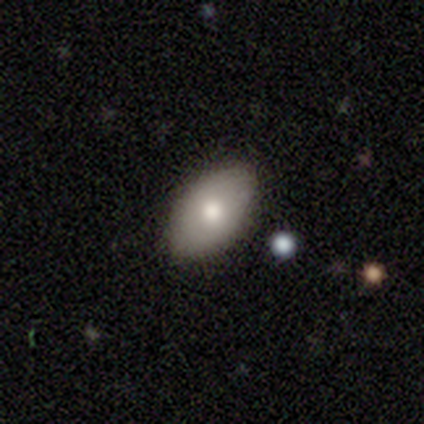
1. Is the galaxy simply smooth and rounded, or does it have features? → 75% smooth, 25% featured or disk, 0% star or artifact.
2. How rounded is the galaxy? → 67% in between, 33% round, 0% cigar-shaped.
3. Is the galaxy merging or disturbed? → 100% none, 0% minor disturbance, 0% major disturbance, 0% merger.